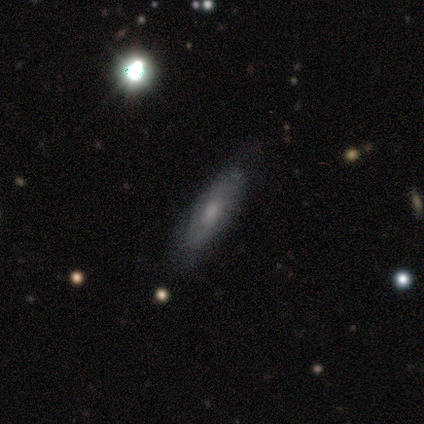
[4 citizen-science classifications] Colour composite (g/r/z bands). It shows a featured or disk galaxy (100%) with no bar (100%), no spiral arms (67%) and a small central bulge (67%). Merging: none (100%).